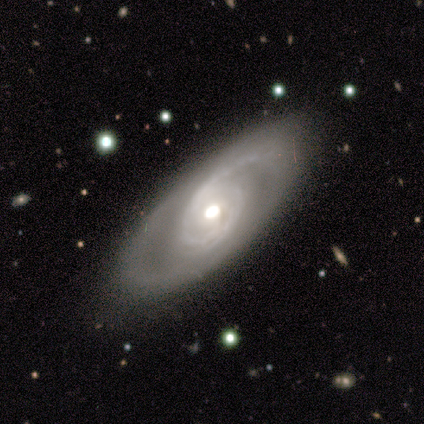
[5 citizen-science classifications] featured or disk 100%, smooth 0%, star or artifact 0%. Down the decision tree: edge-on disk — no (100%); bar — no (100%); spiral arms — yes (100%); spiral arm count — 2 (60%); spiral winding — medium (40%, tied with loose); bulge size — moderate (100%); merging — none (80%).